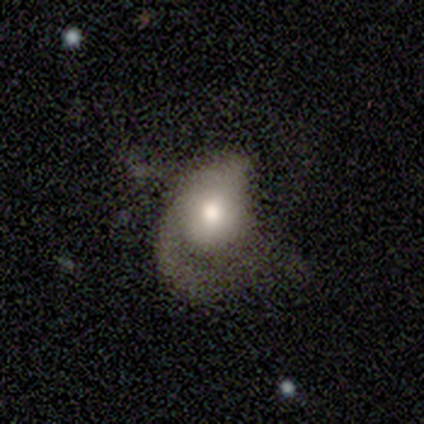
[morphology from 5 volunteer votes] smooth 60%, featured or disk 40%, star or artifact 0%. Down the decision tree: how rounded — in between (67%); merging — minor disturbance (40%, tied with major disturbance).